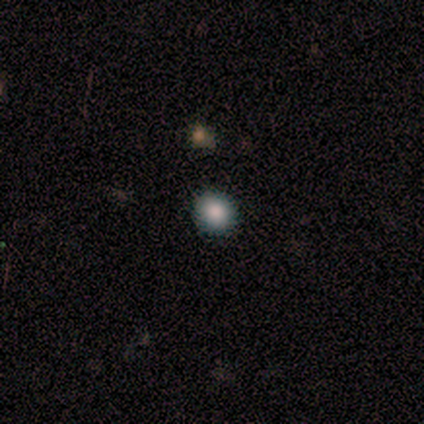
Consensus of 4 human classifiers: This is likely a smooth galaxy (75%). How rounded: clearly round (100%). Merging: clearly none (100%).